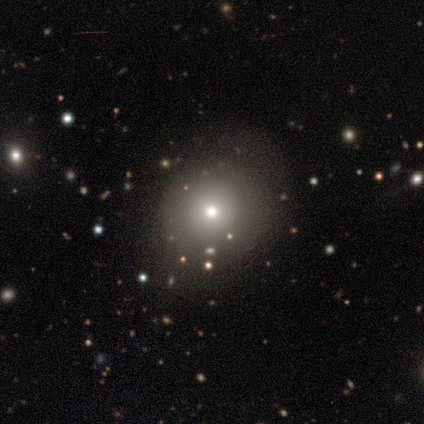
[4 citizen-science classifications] A smooth galaxy with no disk features (50%, tied with star or artifact) that is round (50%, tied with in between).

Vote fractions:
- Smooth or featured? smooth: 50% (tied) / star or artifact: 50% (tied) / featured or disk: 0%
- How rounded? round: 50% (tied) / in between: 50% (tied) / cigar-shaped: 0%
- Merging? none: 100% / minor disturbance: 0% / major disturbance: 0% / merger: 0%